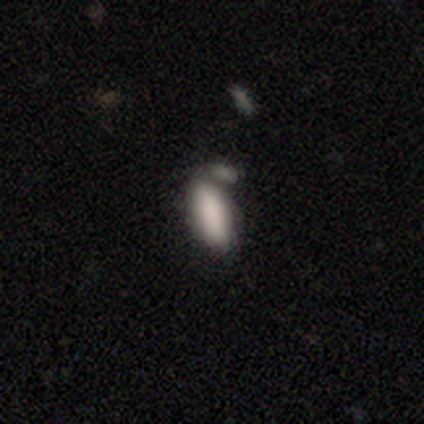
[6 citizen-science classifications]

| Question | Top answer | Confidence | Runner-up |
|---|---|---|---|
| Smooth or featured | smooth | 50% | featured or disk (33%) |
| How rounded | in between | 100% | — |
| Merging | none | 40% | tied: merger (40%) |